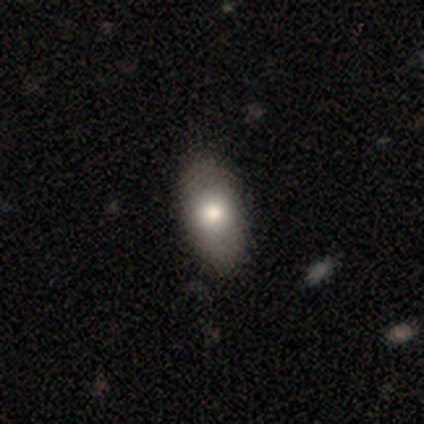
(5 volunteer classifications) Morphology: type=smooth (80%); roundness=in between (75%); merging=none (100%).